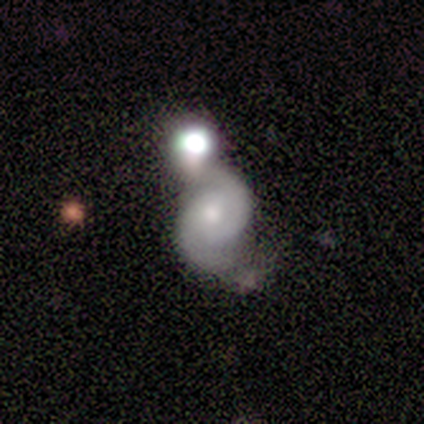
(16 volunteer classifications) smooth-or-featured: featured or disk: 94% | smooth: 6% | star or artifact: 0%
  disk-edge-on: no: 93% | yes: 7%
    bar: no: 93% | weak: 7% | strong: 0%
    has-spiral-arms: yes: 100% | no: 0%
      spiral-winding: tight: 50% | medium: 36% | loose: 14%
      spiral-arm-count: 2: 93% | can't tell: 7% | 1: 0% | 3: 0% | 4: 0% | more than 4: 0%
    bulge-size: moderate: 64% | small: 29% | none: 7% | dominant: 0% | large: 0%
  merging: merger: 44% | none: 31% | minor disturbance: 25% | major disturbance: 0%